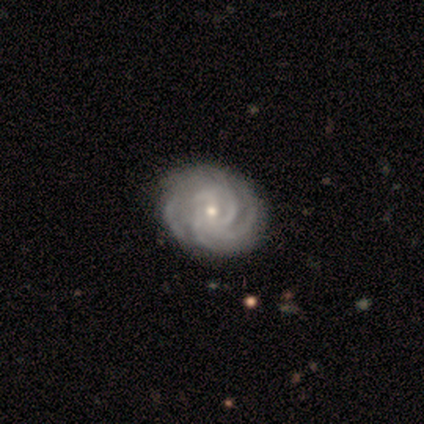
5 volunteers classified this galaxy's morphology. Overall: featured or disk (80%). Edge-on disk: no (100%). Bar: no (75%). Spiral arms: yes (100%). Spiral arm count: 2 (25%, tied with 3, 4 and can't tell). Spiral winding: tight (75%). Bulge size: moderate (75%). Merging: none (80%).